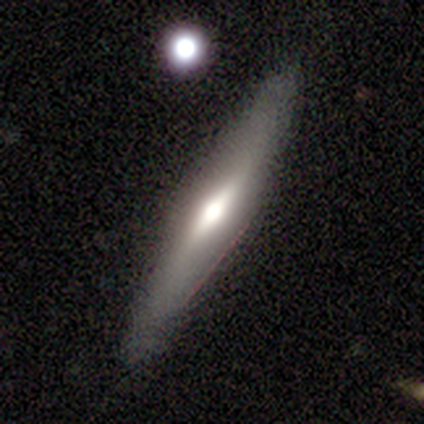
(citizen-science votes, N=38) Morphology: type=smooth (47%, tied with featured or disk); roundness=cigar-shaped (78%); merging=none (86%).